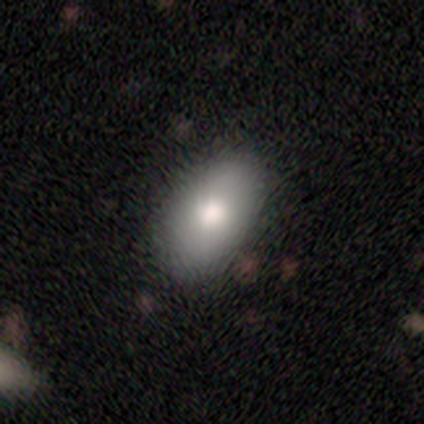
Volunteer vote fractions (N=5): Q: Smooth or featured?
A: smooth (100%)
Q: How rounded?
A: in between (100%)
Q: Merging?
A: none (80%); runner-up: minor disturbance (20%)